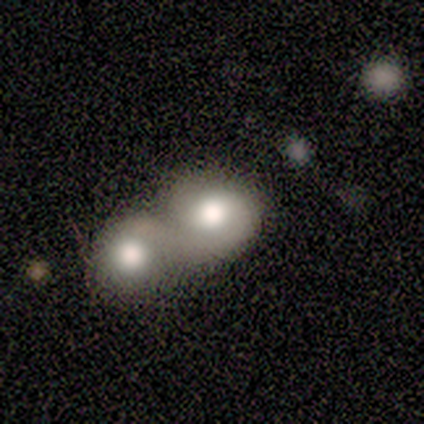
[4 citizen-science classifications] Overall: smooth (75%). How rounded: round (100%). Merging: none (50%, tied with merger).